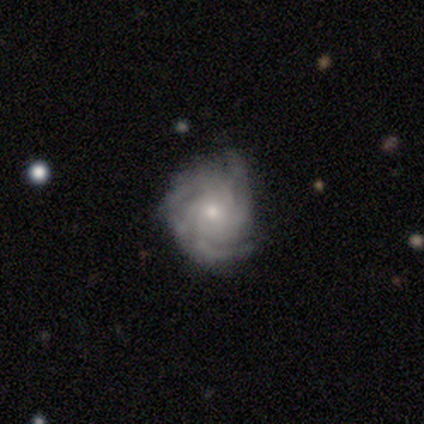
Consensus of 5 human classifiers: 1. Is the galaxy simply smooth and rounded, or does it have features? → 60% featured or disk, 40% smooth, 0% star or artifact.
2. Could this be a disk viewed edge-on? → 100% no, 0% yes.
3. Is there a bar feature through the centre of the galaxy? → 67% no, 33% weak, 0% strong.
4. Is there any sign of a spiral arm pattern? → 100% yes, 0% no.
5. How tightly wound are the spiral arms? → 67% tight, 33% medium, 0% loose.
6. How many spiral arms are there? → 100% 3, 0% 1, 0% 2, 0% 4, 0% more than 4, 0% can't tell.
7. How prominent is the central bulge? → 67% small, 33% moderate, 0% dominant, 0% large, 0% none.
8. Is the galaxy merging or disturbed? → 40% none (tied), 40% major disturbance (tied), 20% merger, 0% minor disturbance.